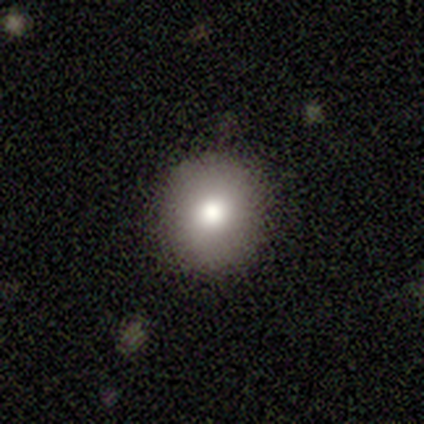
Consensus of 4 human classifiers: Overall: smooth (50%, tied with star or artifact). How rounded: round (100%). Merging: minor disturbance (100%).